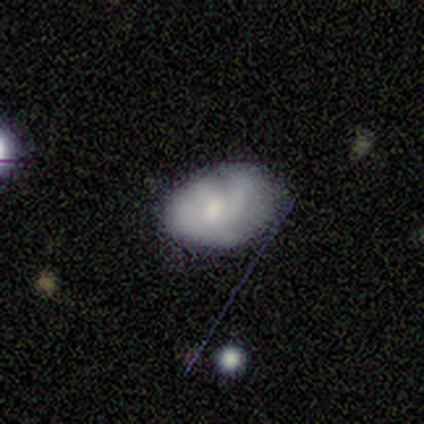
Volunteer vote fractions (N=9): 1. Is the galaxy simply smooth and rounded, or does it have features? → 56% featured or disk, 33% smooth, 11% star or artifact.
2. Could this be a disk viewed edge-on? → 80% no, 20% yes.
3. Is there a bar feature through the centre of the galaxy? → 100% weak, 0% strong, 0% no.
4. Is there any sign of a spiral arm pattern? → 100% yes, 0% no.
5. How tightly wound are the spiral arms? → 50% tight (tied), 50% medium (tied), 0% loose.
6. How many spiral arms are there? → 75% 2, 25% 1, 0% 3, 0% 4, 0% more than 4, 0% can't tell.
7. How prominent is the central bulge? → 50% moderate, 25% large, 25% small, 0% dominant, 0% none.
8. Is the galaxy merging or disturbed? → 50% minor disturbance, 25% none, 25% major disturbance, 0% merger.